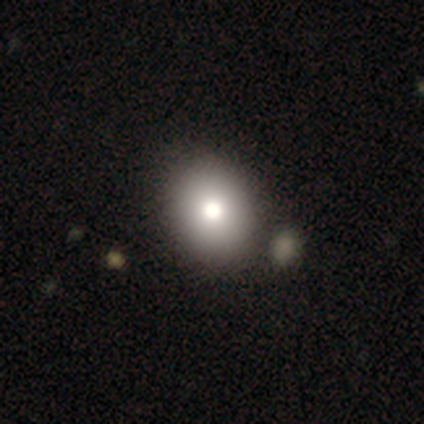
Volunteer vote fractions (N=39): Smooth or featured? smooth (79%)
How rounded? in between (52%)
Merging? none (56%)